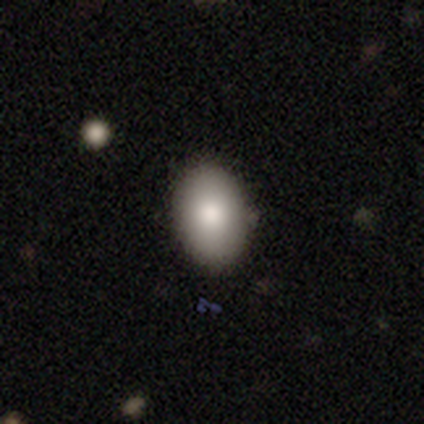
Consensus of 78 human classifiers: Smooth or featured: smooth — 90% (featured or disk — 5%)
How rounded: in between — 89% (round — 11%)
Merging: none — 47% (minor disturbance — 3%)